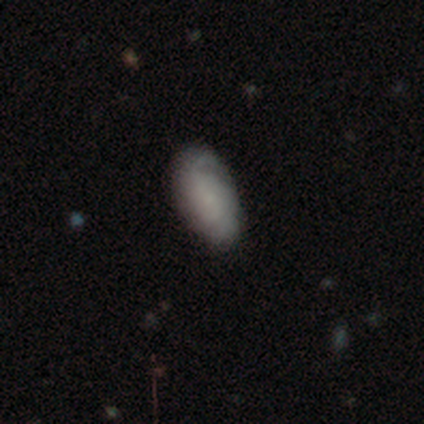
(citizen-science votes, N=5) A smooth galaxy with no disk features (80%) that is in between round and cigar-shaped (100%).

Vote fractions:
- Smooth or featured? smooth: 80% / featured or disk: 20% / star or artifact: 0%
- How rounded? in between: 100% / round: 0% / cigar-shaped: 0%
- Merging? none: 60% / minor disturbance: 40% / major disturbance: 0% / merger: 0%